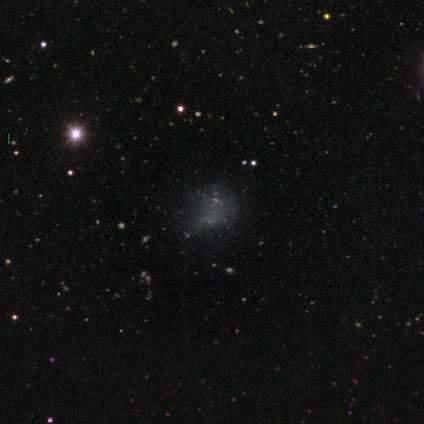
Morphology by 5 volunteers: star or artifact 80%, smooth 20%, featured or disk 0%.